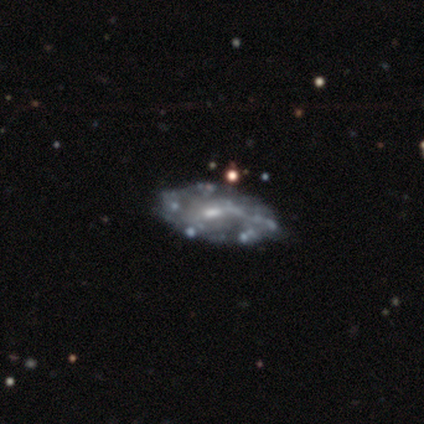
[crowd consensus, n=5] This is clearly a featured or disk galaxy (80%). It is clearly not viewed edge-on (100%). Bar: likely weak (75%). Spiral arm pattern: likely no (75%). Central bulge: clearly small (100%). Merging: likely none (60%).